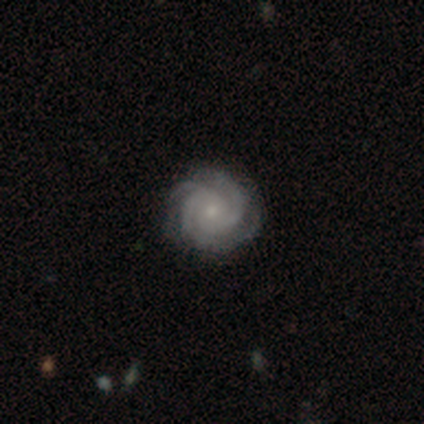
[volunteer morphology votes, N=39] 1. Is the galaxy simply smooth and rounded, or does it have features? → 92% featured or disk, 5% star or artifact, 3% smooth.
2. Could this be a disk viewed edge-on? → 94% no, 6% yes.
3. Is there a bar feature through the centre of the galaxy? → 79% no, 18% weak, 3% strong.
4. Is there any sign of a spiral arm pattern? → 100% yes, 0% no.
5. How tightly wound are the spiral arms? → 94% tight, 6% medium, 0% loose.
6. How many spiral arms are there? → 38% 3, 26% 2, 18% 4, 15% can't tell, 3% more than 4, 0% 1.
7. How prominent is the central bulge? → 82% small, 15% moderate, 3% none, 0% dominant, 0% large.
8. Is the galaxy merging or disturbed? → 89% none, 8% minor disturbance, 3% major disturbance, 0% merger.